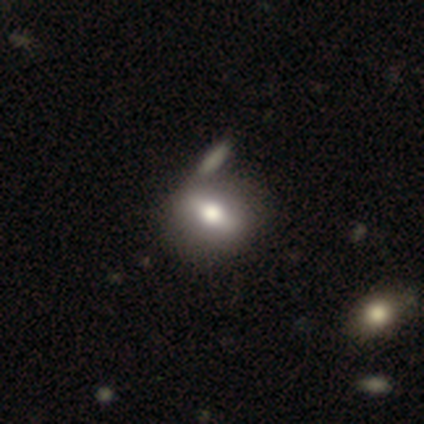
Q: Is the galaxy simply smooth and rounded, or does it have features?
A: smooth — 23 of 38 (61%).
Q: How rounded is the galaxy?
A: in between — 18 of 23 (78%).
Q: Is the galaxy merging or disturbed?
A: none — 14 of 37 (38%).